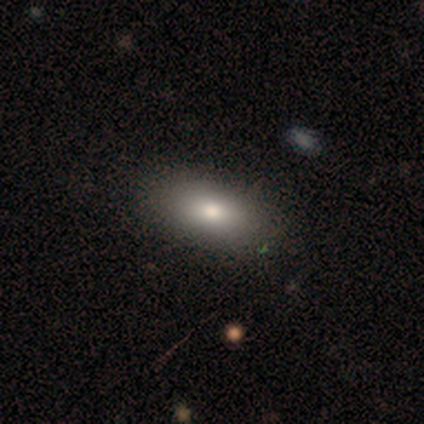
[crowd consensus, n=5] smooth 60%, star or artifact 40%, featured or disk 0%. Down the decision tree: how rounded — in between (67%); merging — none (100%).